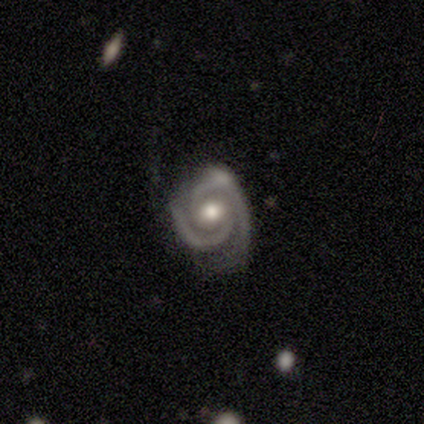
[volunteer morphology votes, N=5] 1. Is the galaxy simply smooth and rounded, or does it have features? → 100% featured or disk, 0% smooth, 0% star or artifact.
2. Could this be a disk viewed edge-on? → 100% no, 0% yes.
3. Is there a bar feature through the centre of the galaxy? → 80% no, 20% weak, 0% strong.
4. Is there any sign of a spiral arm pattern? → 100% yes, 0% no.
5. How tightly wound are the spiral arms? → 80% tight, 20% loose, 0% medium.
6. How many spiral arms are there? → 100% 2, 0% 1, 0% 3, 0% 4, 0% more than 4, 0% can't tell.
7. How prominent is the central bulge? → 80% moderate, 20% large, 0% dominant, 0% small, 0% none.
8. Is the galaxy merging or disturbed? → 60% none, 20% minor disturbance, 20% major disturbance, 0% merger.